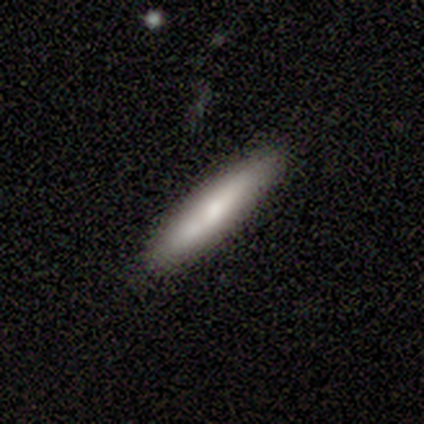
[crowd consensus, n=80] Overall: smooth (79%). How rounded: cigar-shaped (86%). Merging: none (47%; merger 8%).